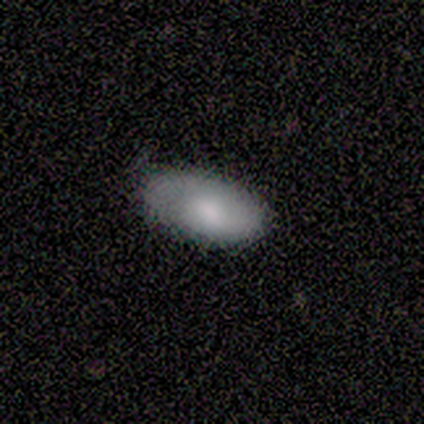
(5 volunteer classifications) Q: Smooth or featured?
A: smooth (80%); runner-up: featured or disk (20%)
Q: How rounded?
A: in between (100%)
Q: Merging?
A: none (80%); runner-up: minor disturbance (20%)